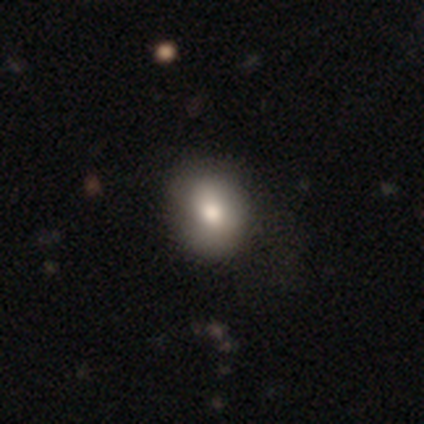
This appears to be a smooth galaxy with no disk features (100%) that is in between round and cigar-shaped (60%). Merging: none (60%).